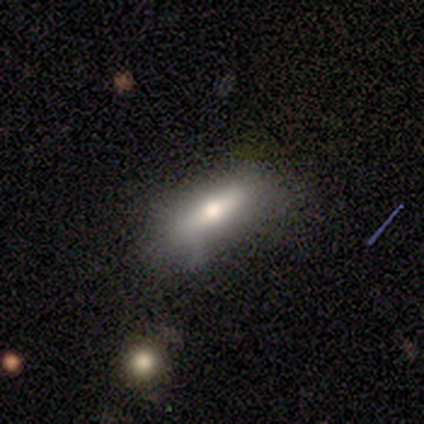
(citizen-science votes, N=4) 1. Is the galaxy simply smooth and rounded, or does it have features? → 100% smooth, 0% featured or disk, 0% star or artifact.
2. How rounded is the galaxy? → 50% in between (tied), 50% cigar-shaped (tied), 0% round.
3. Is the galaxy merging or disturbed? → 100% none, 0% minor disturbance, 0% major disturbance, 0% merger.